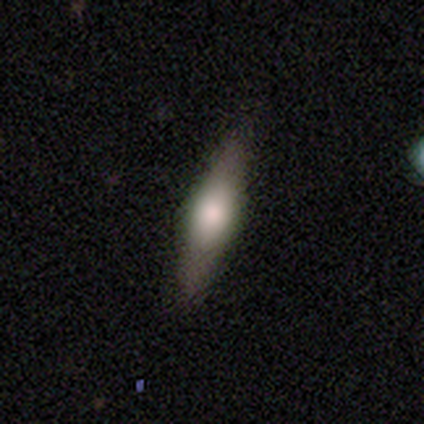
This appears to be a featured or disk galaxy (80%) viewed edge-on (100%) with a rounded central bulge (100%). Merging: none (100%).